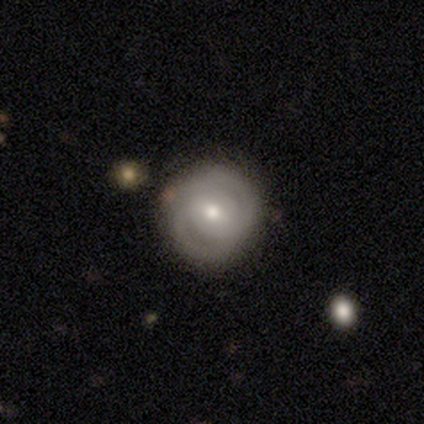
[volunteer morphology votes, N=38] smooth_or_featured: featured or disk (p=0.61) [alt: smooth p=0.37]
disk_edge_on: no (p=1.00)
bar: no (p=0.39) [alt: weak p=0.35]
has_spiral_arms: yes (p=0.74) [alt: no p=0.26]
spiral_winding: tight (p=0.71) [alt: medium p=0.18]
spiral_arm_count: 2 (p=0.88) [alt: can't tell p=0.12]
bulge_size: moderate (p=0.61) [alt: small p=0.39]
merging: none (p=0.65) [alt: minor disturbance p=0.05]